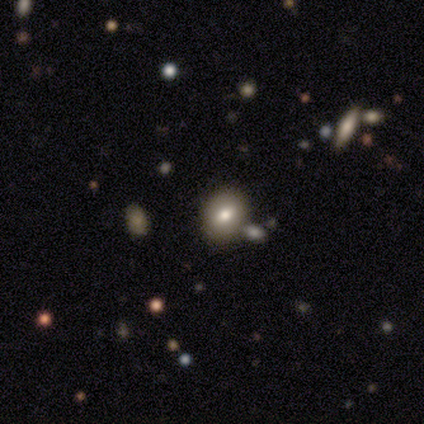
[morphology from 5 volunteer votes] smooth_or_featured: featured or disk (p=0.40) [tied with: star or artifact p=0.40]
disk_edge_on: no (p=1.00)
bar: no (p=1.00)
has_spiral_arms: no (p=1.00)
bulge_size: moderate (p=1.00)
merging: none (p=0.67) [alt: minor disturbance p=0.33]